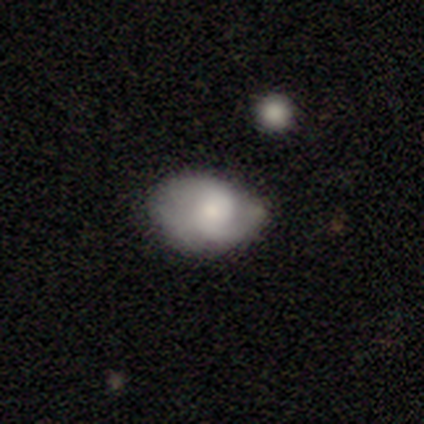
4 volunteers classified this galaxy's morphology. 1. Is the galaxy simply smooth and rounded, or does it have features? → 50% smooth (tied), 50% featured or disk (tied), 0% star or artifact.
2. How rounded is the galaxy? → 100% in between, 0% round, 0% cigar-shaped.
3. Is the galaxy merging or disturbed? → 50% none (tied), 50% minor disturbance (tied), 0% major disturbance, 0% merger.